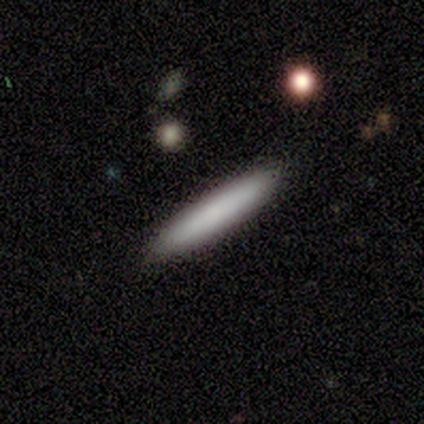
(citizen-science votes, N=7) smooth 86%, featured or disk 14%, star or artifact 0%. Down the decision tree: how rounded — cigar-shaped (100%); merging — none (86%).